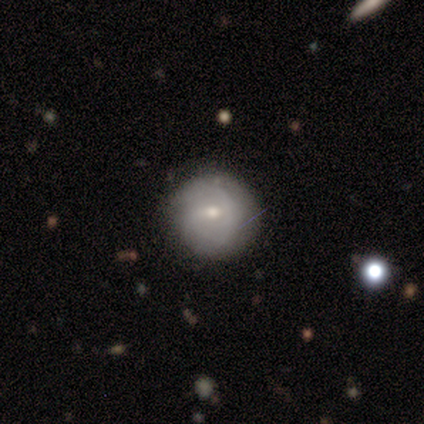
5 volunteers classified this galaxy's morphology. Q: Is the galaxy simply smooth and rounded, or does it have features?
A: featured or disk — 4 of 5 (80%).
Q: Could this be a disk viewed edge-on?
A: no — 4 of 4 (100%).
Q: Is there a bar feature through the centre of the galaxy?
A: no — 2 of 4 (50%).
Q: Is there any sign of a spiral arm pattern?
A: yes — 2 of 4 (50%, tied with no).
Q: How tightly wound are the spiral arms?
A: tight — 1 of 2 (50%, tied with loose).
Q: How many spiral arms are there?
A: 2 — 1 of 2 (50%, tied with can't tell).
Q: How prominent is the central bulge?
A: small — 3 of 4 (75%).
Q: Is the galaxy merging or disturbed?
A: none — 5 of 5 (100%).